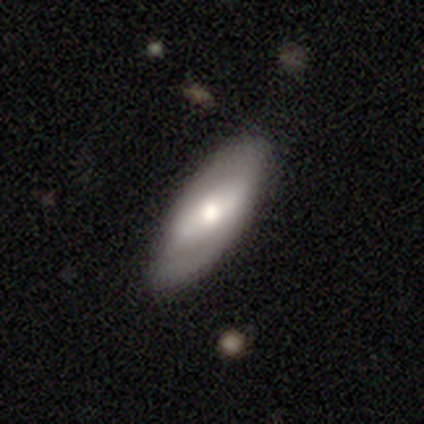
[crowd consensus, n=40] This is possibly a featured or disk galaxy (57%). It is clearly not viewed edge-on (83%). Bar: marginally strong (37%). Spiral arm pattern: possibly no (53%). Central bulge: marginally moderate (42%, tied with small). Merging: clearly none (81%).